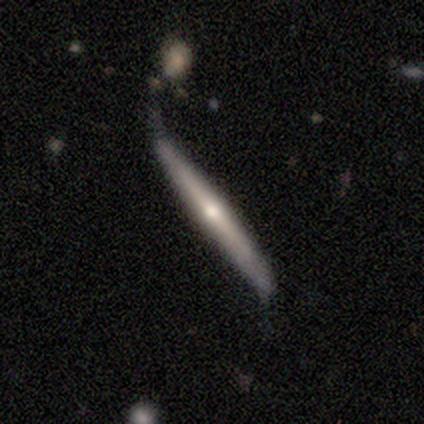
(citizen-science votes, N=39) A featured or disk galaxy (82%) viewed edge-on (94%) with a rounded central bulge (80%). Merging: none (42%).